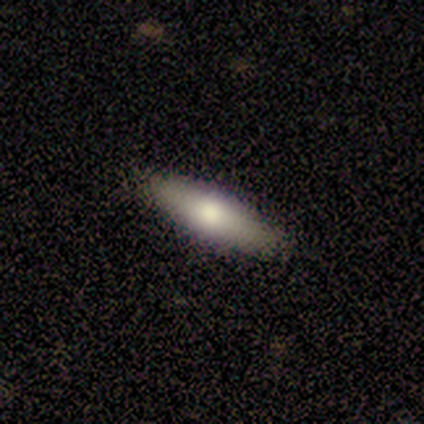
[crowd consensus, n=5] Volunteers were most divided on "how rounded" (2-way tie): in between: 50%, cigar-shaped: 50%, round: 0%. More confident: smooth or featured — smooth (80%); merging — none (75%).